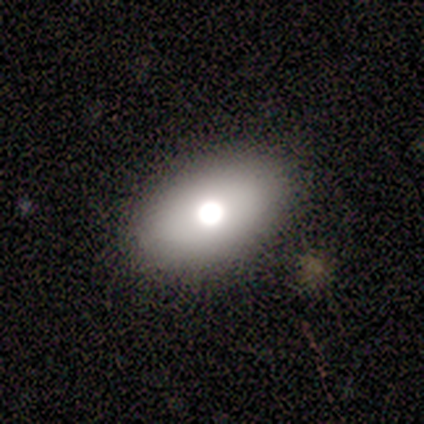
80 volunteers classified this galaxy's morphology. smooth_or_featured: smooth (p=0.78) [alt: featured or disk p=0.14]
how_rounded: in between (p=0.87) [alt: round p=0.13]
merging: none (p=0.45) [alt: major disturbance p=0.04]